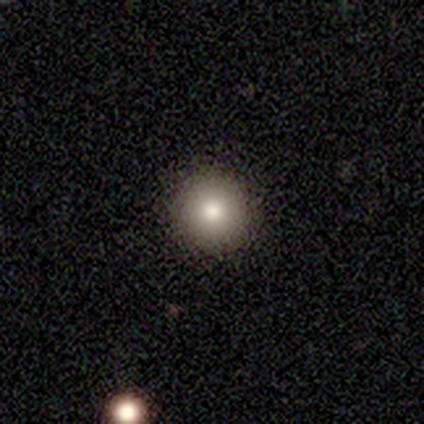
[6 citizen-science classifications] smooth_or_featured: smooth (p=1.00)
how_rounded: round (p=1.00)
merging: none (p=0.83) [alt: minor disturbance p=0.17]